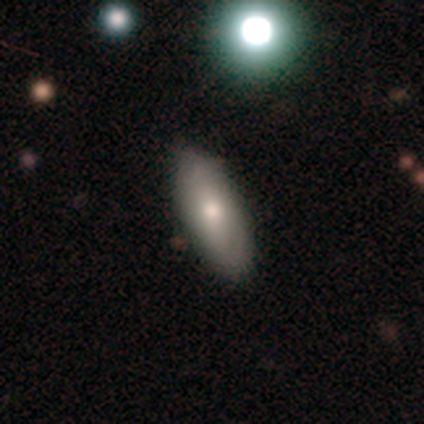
Overall: featured or disk (60%; smooth 40%). Edge-on disk: yes (67%; no 33%). Edge-on bulge: rounded (100%). Merging: none (80%).